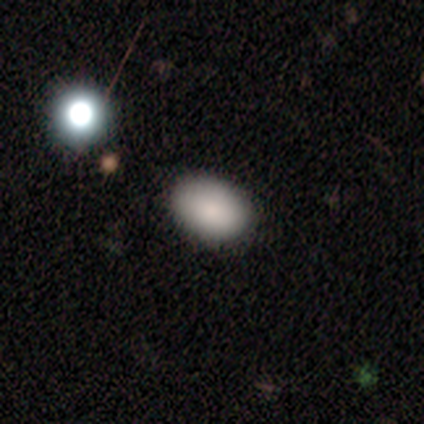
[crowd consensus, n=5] smooth 80%, star or artifact 20%, featured or disk 0%. Down the decision tree: how rounded — round (50%, tied with in between); merging — none (100%).